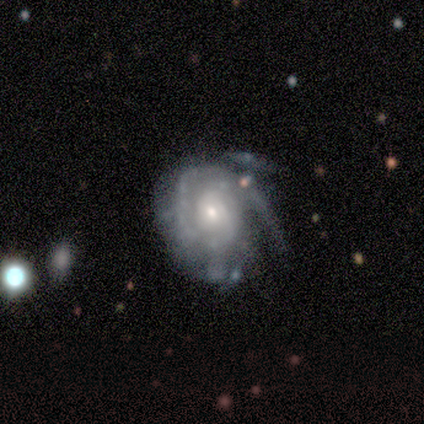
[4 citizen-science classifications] Overall: featured or disk (75%). Edge-on disk: no (100%). Bar: weak (67%; no 33%). Spiral arms: yes (100%). Spiral arm count: 3 (67%; can't tell 33%). Spiral winding: tight (100%). Bulge size: small (67%; moderate 33%). Merging: none (100%).